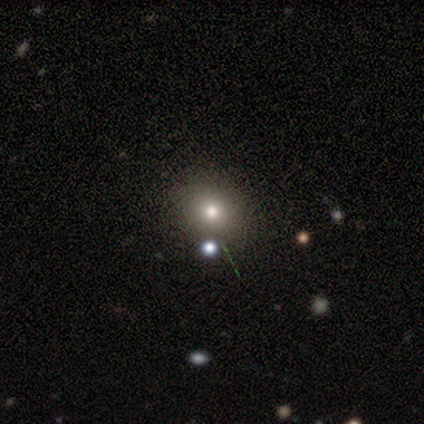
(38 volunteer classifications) Smooth or featured? 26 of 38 (68%) said smooth. How rounded? 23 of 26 (88%) said round. Merging? 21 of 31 (68%) said none.